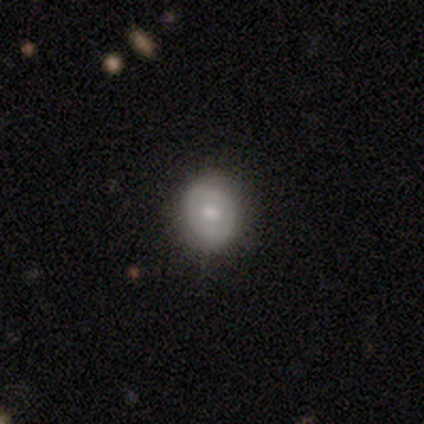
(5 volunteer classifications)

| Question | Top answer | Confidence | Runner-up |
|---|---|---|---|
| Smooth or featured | smooth | 60% | featured or disk (40%) |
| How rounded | round | 67% | in between (33%) |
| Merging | none | 80% | minor disturbance (20%) |